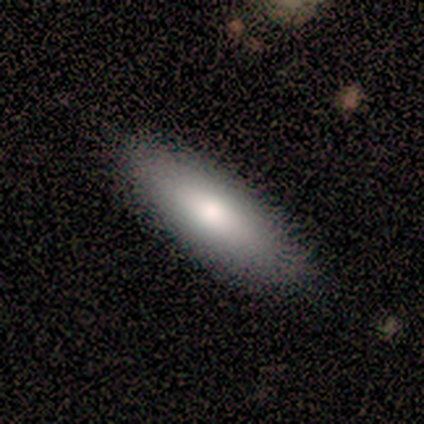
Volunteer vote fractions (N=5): Smooth or featured? 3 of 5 (60%) said smooth. How rounded? 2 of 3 (67%) said in between. Merging? 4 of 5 (80%) said none.